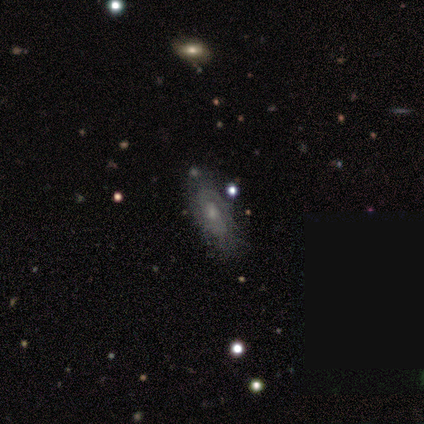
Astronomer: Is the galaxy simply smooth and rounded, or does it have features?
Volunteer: featured or disk — 71%.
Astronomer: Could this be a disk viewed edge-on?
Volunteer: no — 100%.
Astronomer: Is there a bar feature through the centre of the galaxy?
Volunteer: no — 100%.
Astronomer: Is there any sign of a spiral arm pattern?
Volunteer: yes — 60% (runner-up: no, 40%).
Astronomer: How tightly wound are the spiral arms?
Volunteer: medium — 67%.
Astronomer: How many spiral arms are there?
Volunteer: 2 — 67%.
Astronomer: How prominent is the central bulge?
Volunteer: moderate — 80%.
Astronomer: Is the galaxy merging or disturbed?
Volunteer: none — 86%.